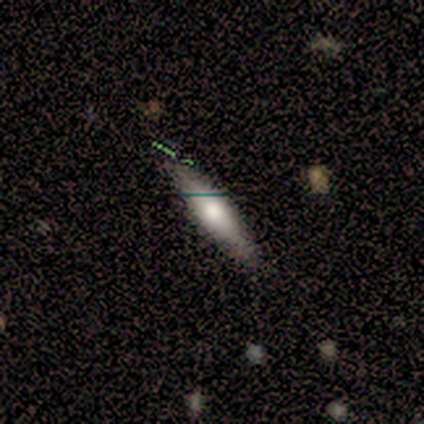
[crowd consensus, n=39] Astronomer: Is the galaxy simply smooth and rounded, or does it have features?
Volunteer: smooth — 51% (runner-up: featured or disk, 38%).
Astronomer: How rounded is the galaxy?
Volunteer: cigar-shaped — 80%.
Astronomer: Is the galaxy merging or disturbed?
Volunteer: none — 71%.